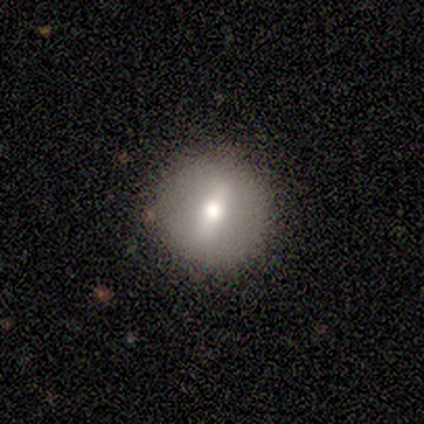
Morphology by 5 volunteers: This is likely a smooth galaxy (60%). How rounded: clearly round (100%). Merging: clearly none (100%).